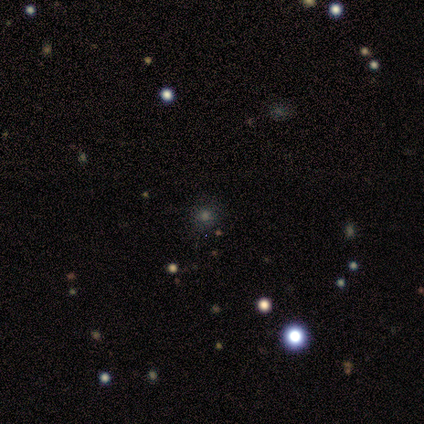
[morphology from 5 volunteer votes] Overall: smooth (60%; star or artifact 40%). How rounded: round (100%). Merging: none (100%).